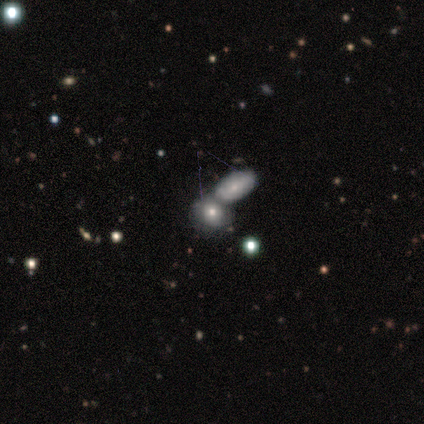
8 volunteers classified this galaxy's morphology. This is likely a smooth galaxy (62%). How rounded: clearly round (80%). Merging: clearly none (80%).